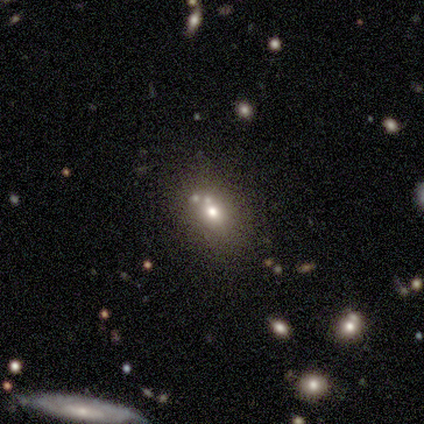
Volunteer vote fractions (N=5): Smooth or featured: smooth — 80% (star or artifact — 20%)
How rounded: round — 50% (tied with in between — 50%)
Merging: none — 75% (merger — 25%)